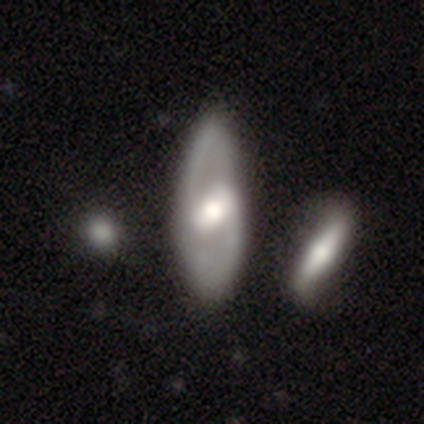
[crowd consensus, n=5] Morphology: type=featured or disk (80%); edge-on=no (100%); bar=strong (50%); spiral arms=yes (100%); winding=medium (75%); arm count=2 (100%); bulge=dominant (25%, tied with large, moderate and small); merging=none (100%).